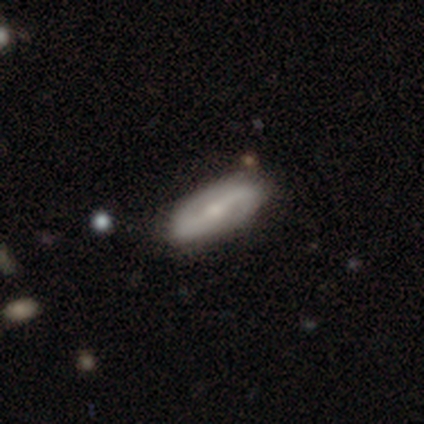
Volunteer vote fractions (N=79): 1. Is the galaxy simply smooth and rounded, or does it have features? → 78% featured or disk, 18% smooth, 4% star or artifact.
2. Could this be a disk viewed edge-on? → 81% no, 19% yes.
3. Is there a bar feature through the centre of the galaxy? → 40% weak, 38% strong, 22% no.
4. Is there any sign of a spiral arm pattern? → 92% yes, 8% no.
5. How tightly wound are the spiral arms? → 41% medium (tied), 41% loose (tied), 17% tight.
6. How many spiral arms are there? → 96% 2, 4% 1, 0% 3, 0% 4, 0% more than 4, 0% can't tell.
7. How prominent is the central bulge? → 52% small, 42% moderate, 6% none, 0% dominant, 0% large.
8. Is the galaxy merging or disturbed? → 47% none, 12% minor disturbance, 1% major disturbance, 0% merger.